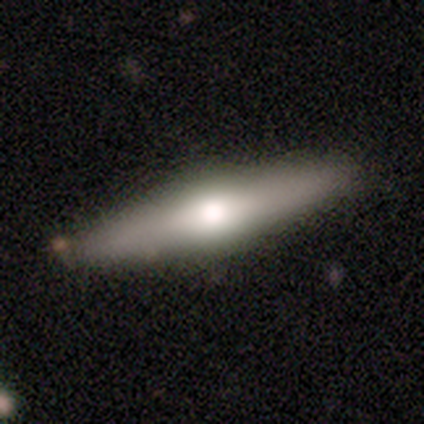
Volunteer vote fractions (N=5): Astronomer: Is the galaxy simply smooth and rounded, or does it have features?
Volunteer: featured or disk — 80%.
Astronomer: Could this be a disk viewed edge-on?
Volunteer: yes — 100%.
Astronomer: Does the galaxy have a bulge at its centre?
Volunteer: rounded — 100%.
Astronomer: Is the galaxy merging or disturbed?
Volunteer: none — 80%.